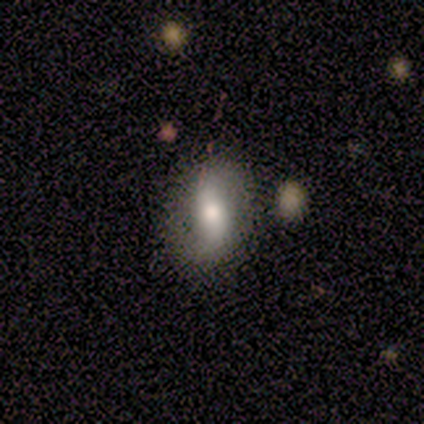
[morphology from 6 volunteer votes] A featured or disk galaxy (67%) with no bar (67%), 2 (100%) loose (67%) spiral arms (100%) and a moderate central bulge (100%). Merging: none (67%).